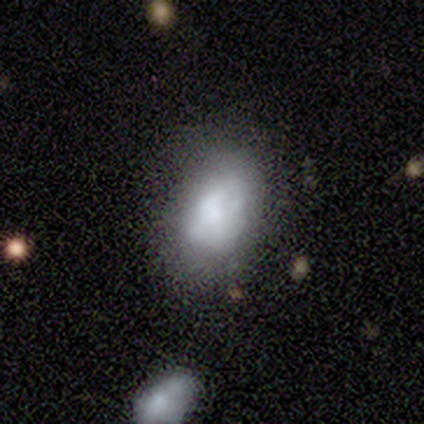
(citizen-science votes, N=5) Smooth or featured: featured or disk — 60% (smooth — 40%)
Edge-on disk: no — 100%
Bar: no — 100%
Spiral arms: no — 100%
Bulge size: large — 33% (tied with small — 33%; none — 33%)
Merging: none — 60% (minor disturbance — 20%)